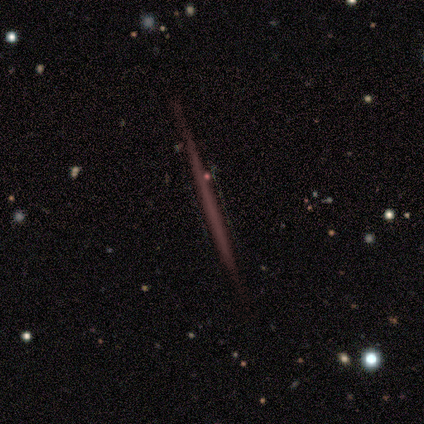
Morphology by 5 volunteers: Smooth or featured? 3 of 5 (60%) said smooth. How rounded? 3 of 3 (100%) said cigar-shaped. Merging? 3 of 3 (100%) said none.